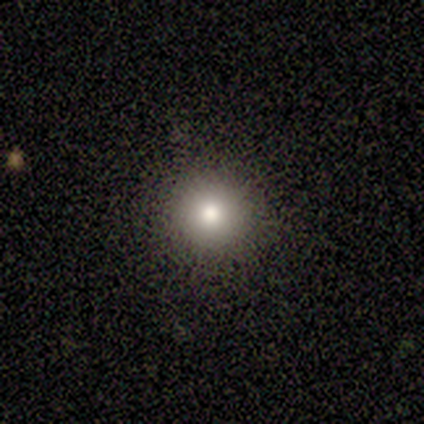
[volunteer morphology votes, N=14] A smooth galaxy with no disk features (71%) that is round (100%).

Vote fractions:
- Smooth or featured? smooth: 71% / featured or disk: 21% / star or artifact: 7%
- How rounded? round: 100% / in between: 0% / cigar-shaped: 0%
- Merging? none: 100% / minor disturbance: 0% / major disturbance: 0% / merger: 0%